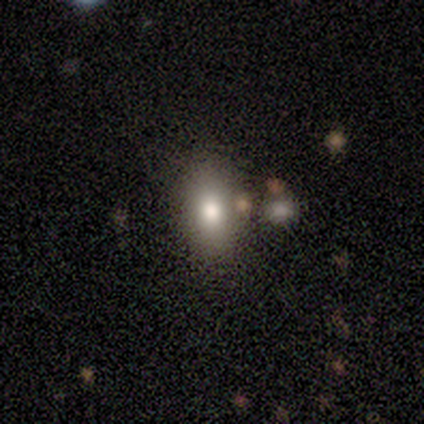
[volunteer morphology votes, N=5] smooth_or_featured: smooth (p=0.40) [tied with: featured or disk p=0.40]
how_rounded: in between (p=1.00)
merging: none (p=0.75) [alt: minor disturbance p=0.25]